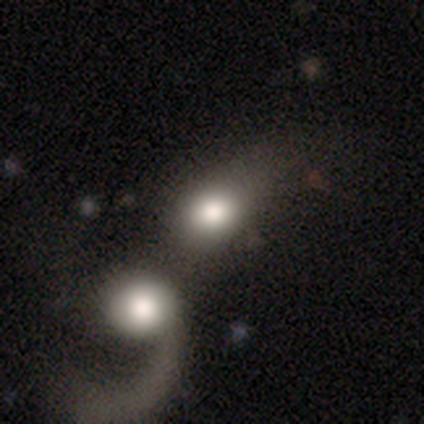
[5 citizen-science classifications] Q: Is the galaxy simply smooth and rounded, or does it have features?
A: smooth — 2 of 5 (40%, tied with featured or disk).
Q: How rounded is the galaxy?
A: in between — 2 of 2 (100%).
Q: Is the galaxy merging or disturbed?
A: merger — 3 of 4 (75%).